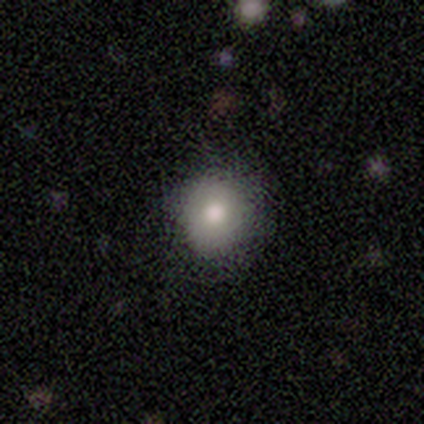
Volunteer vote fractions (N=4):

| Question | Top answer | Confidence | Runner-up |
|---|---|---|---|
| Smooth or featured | smooth | 100% | — |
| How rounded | round | 75% | in between (25%) |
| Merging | none | 50% | tied: minor disturbance (50%) |